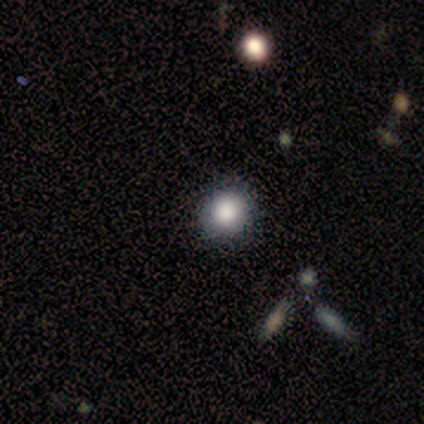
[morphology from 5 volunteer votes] Q: Smooth or featured?
A: smooth (100%)
Q: How rounded?
A: in between (80%); runner-up: round (20%)
Q: Merging?
A: none (60%); runner-up: minor disturbance (40%)